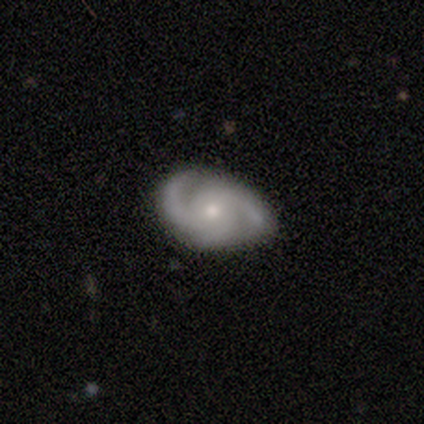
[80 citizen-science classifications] Smooth or featured? featured or disk (90%)
Edge-on disk? no (99%)
Bar? no (75%)
Spiral arms? yes (99%)
Spiral winding? medium (50%)
Spiral arm count? 2 (63%)
Bulge size? small (56%)
Merging? none (48%)